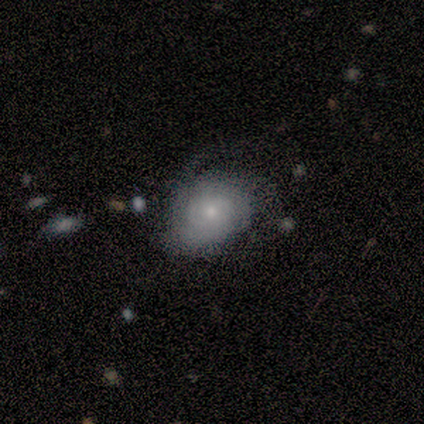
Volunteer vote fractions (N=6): Smooth or featured? 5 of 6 (83%) said featured or disk. Edge-on disk? 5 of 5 (100%) said no. Bar? 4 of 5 (80%) said no. Spiral arms? 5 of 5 (100%) said yes. Spiral winding? 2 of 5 (40%, tied with medium) said tight. Spiral arm count? 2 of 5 (40%, tied with can't tell) said 3. Bulge size? 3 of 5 (60%) said small. Merging? 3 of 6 (50%) said none.